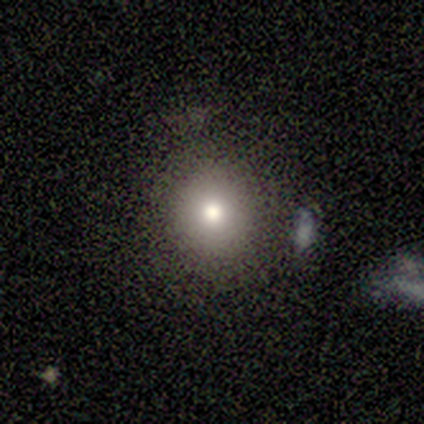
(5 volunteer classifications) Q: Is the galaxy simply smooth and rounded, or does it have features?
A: smooth — 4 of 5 (80%).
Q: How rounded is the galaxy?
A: round — 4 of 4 (100%).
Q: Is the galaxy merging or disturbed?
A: none — 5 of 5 (100%).